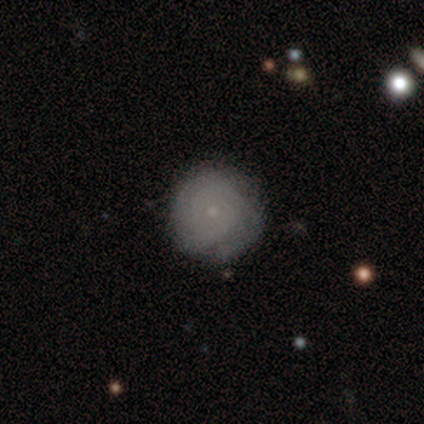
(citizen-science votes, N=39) This is likely a featured or disk galaxy (64%). It is clearly not viewed edge-on (100%). Bar: clearly no (88%). Spiral arm pattern: clearly yes (88%). Spiral arm count: likely can't tell (64%). Spiral winding: likely tight (73%). Central bulge: clearly small (88%). Merging: clearly none (81%).